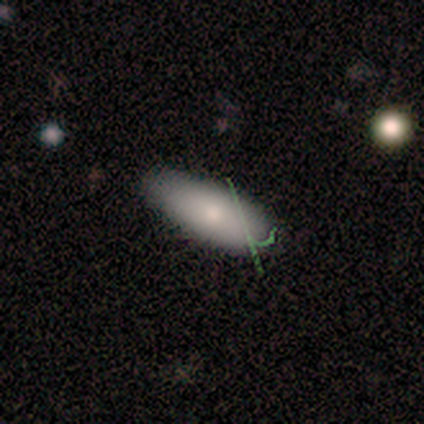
Smooth or featured?
  - smooth: 75% *
  - featured or disk: 25%
  - star or artifact: 0%
How rounded?
  - in between: 67% *
  - cigar-shaped: 33%
  - round: 0%
Merging?
  - none: 75% *
  - minor disturbance: 25%
  - major disturbance: 0%
  - merger: 0%